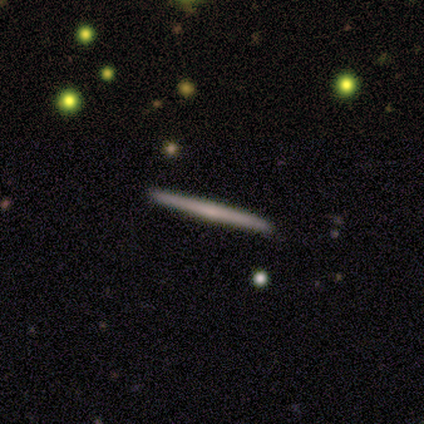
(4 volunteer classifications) Smooth or featured? 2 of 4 (50%) said featured or disk. Edge-on disk? 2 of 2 (100%) said yes. Edge-on bulge? 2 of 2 (100%) said none. Merging? 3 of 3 (100%) said none.